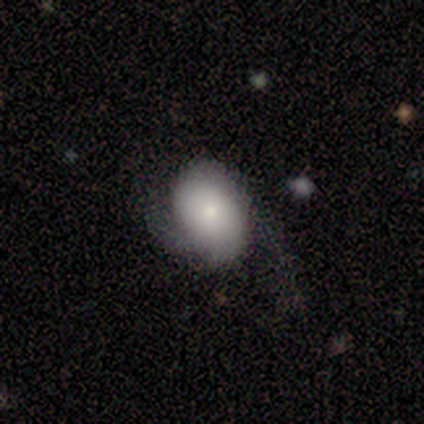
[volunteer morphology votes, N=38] Volunteers were most divided on "merging": none: 42%, major disturbance: 33%, minor disturbance: 25%, merger: 0%. More confident: how rounded — in between (78%); smooth or featured — smooth (61%).